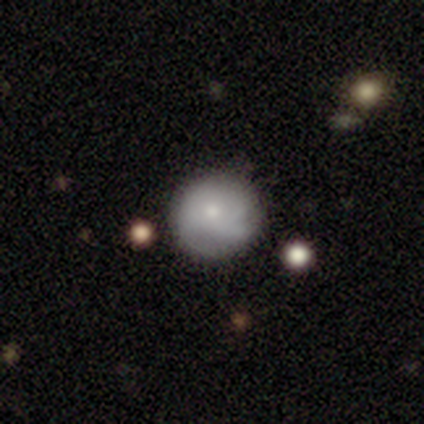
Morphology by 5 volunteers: Smooth or featured?
  - smooth: 60% *
  - featured or disk: 40%
  - star or artifact: 0%
How rounded?
  - round: 100% *
  - in between: 0%
  - cigar-shaped: 0%
Merging?
  - none: 80% *
  - minor disturbance: 20%
  - major disturbance: 0%
  - merger: 0%